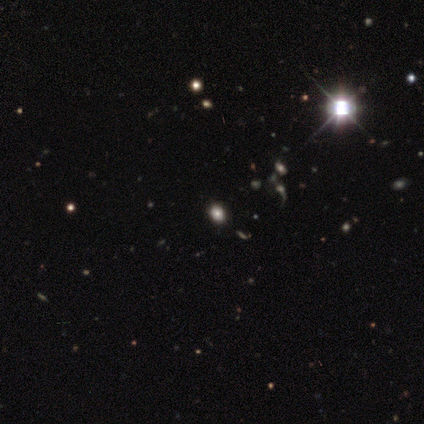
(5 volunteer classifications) smooth_or_featured: star or artifact (p=0.80) [alt: smooth p=0.20]